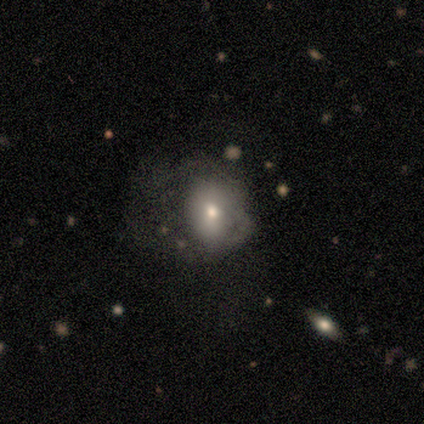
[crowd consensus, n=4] A featured or disk galaxy (75%) with no bar (100%), no spiral arms (100%) and a large central bulge (33%, tied with moderate and small). Merging: minor disturbance (67%).